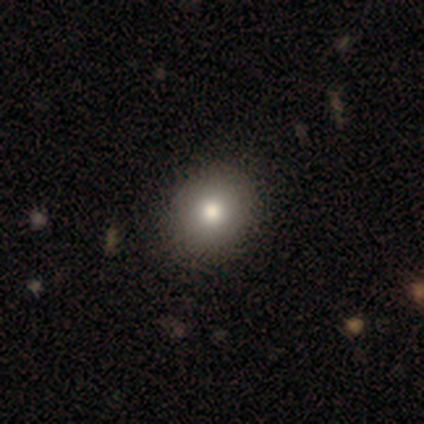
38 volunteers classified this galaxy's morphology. smooth_or_featured: smooth (p=0.82) [alt: featured or disk p=0.16]
how_rounded: round (p=0.77) [alt: in between p=0.23]
merging: none (p=0.68) [alt: minor disturbance p=0.03]